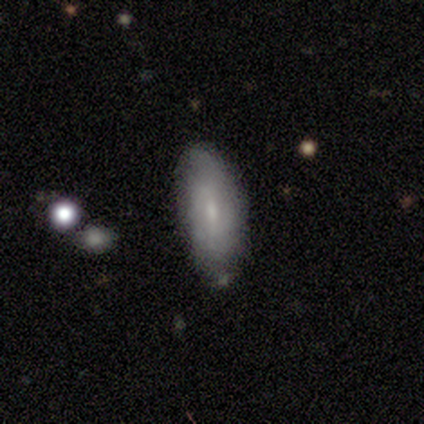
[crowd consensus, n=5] A smooth galaxy with no disk features (100%) that is in between round and cigar-shaped (100%). Merging: none (60%).